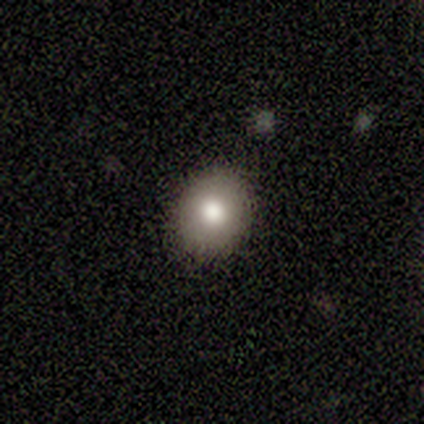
Morphology: type=smooth (75%); roundness=round (100%); merging=none (100%).